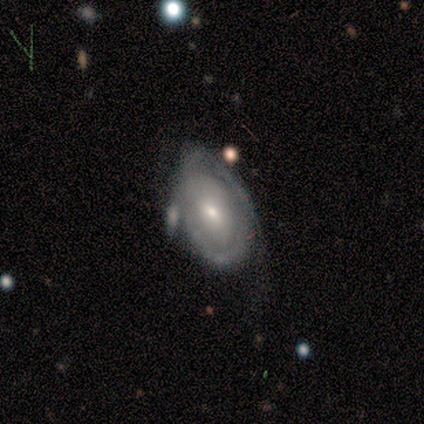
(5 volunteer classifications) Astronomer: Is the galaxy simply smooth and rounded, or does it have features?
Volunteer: featured or disk — 60%.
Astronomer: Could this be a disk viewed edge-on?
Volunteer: no — 100%.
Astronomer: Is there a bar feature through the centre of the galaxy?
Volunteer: weak — 100%.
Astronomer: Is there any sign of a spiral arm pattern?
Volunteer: yes — 100%.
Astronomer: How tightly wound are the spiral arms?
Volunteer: tight — 67%.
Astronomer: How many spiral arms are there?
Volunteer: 1 — 33%, tied with 2 and can't tell at 33%.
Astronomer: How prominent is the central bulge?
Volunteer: small — 100%.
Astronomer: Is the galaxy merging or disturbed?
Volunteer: none — 50%.